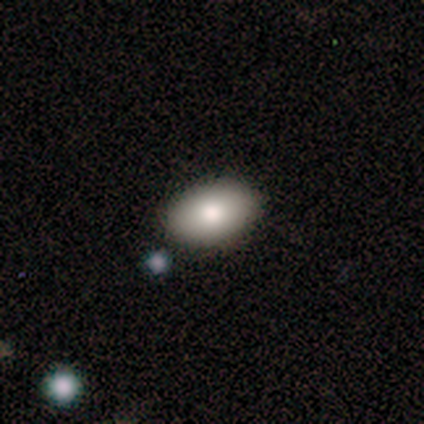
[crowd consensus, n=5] Q: Smooth or featured?
A: smooth (100%)
Q: How rounded?
A: in between (100%)
Q: Merging?
A: none (100%)